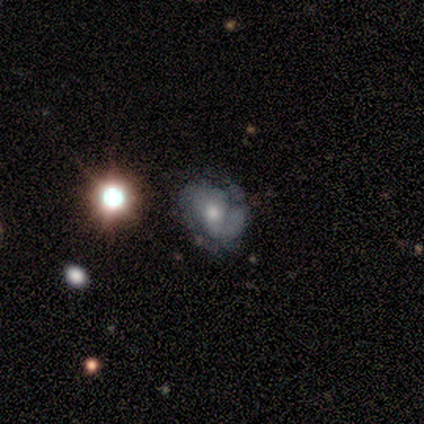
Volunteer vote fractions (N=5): A featured or disk galaxy (80%) with a weak bar (50%, tied with no), 2 (100%) tight (100%) spiral arms (50%, tied with no) and a moderate central bulge (50%, tied with small). Merging: none (75%).